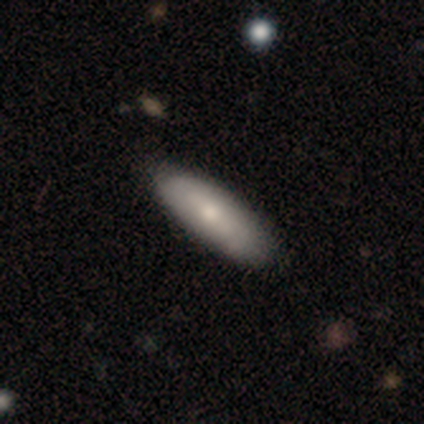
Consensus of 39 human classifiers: This is likely a smooth galaxy (64%). How rounded: clearly in between (84%). Merging: possibly none (56%).